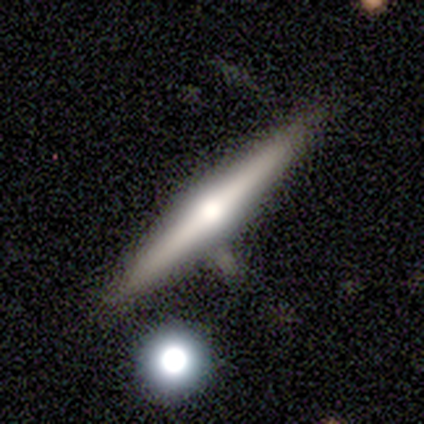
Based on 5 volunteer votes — Overall: featured or disk (60%; smooth 40%). Edge-on disk: yes (100%). Edge-on bulge: rounded (100%). Merging: none (80%).